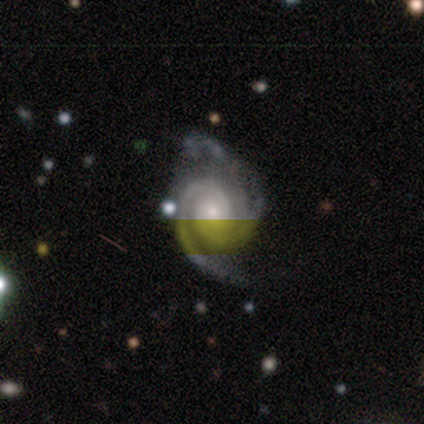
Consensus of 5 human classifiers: Volunteers were most divided on "merging" (2-way tie): none: 40%, major disturbance: 40%, minor disturbance: 20%, merger: 0%. More confident: smooth or featured — featured or disk (100%); edge-on disk — no (100%); bar — no (100%); spiral arms — yes (100%); spiral arm count — 2 (80%); spiral winding — medium (60%); bulge size — moderate (60%).